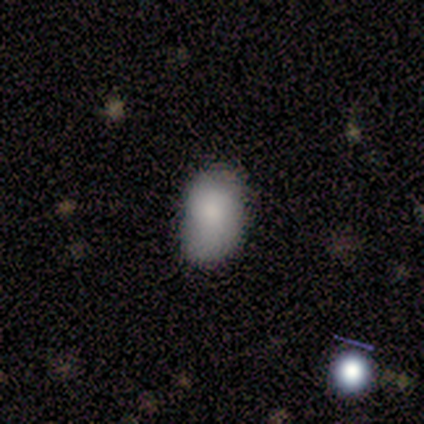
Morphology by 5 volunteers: Volunteers were most divided on "smooth or featured": smooth: 80%, star or artifact: 20%, featured or disk: 0%. More confident: how rounded — in between (100%); merging — none (100%).